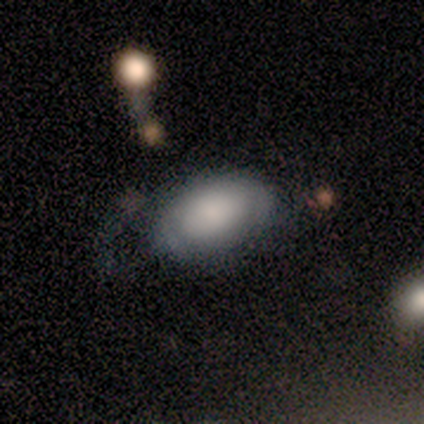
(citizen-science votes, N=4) smooth 75%, featured or disk 25%, star or artifact 0%. Down the decision tree: how rounded — in between (100%); merging — none (75%).